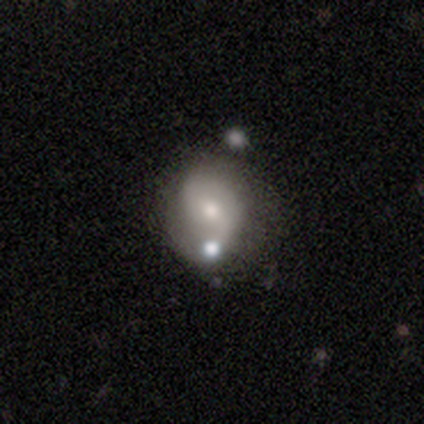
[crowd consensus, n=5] featured or disk 80%, smooth 20%, star or artifact 0%. Down the decision tree: edge-on disk — no (100%); bar — no (75%); spiral arms — yes (75%); spiral arm count — 2 (100%); spiral winding — loose (67%); bulge size — moderate (75%); merging — minor disturbance (60%).